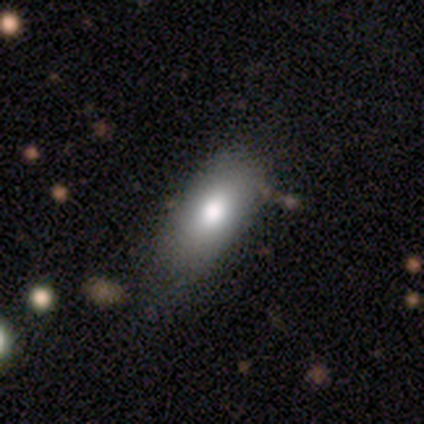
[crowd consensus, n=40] smooth 75%, featured or disk 15%, star or artifact 10%. Down the decision tree: how rounded — in between (90%); merging — none (58%).